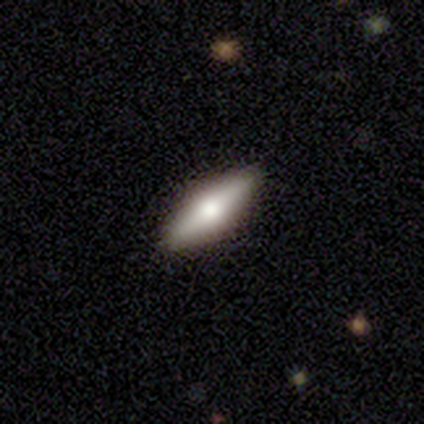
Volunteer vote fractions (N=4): This appears to be a smooth galaxy with no disk features (75%) that is cigar-shaped (67%). Merging: none (75%).